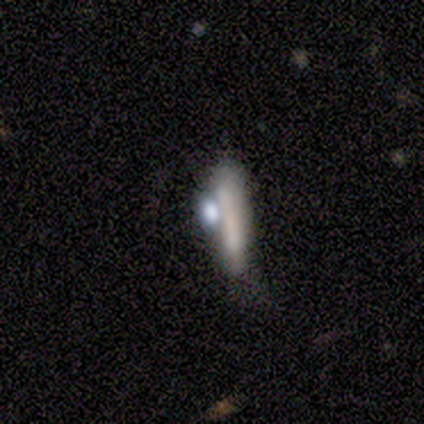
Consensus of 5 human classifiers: Smooth or featured? 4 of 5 (80%) said smooth. How rounded? 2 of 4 (50%, tied with cigar-shaped) said in between. Merging? 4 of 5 (80%) said none.